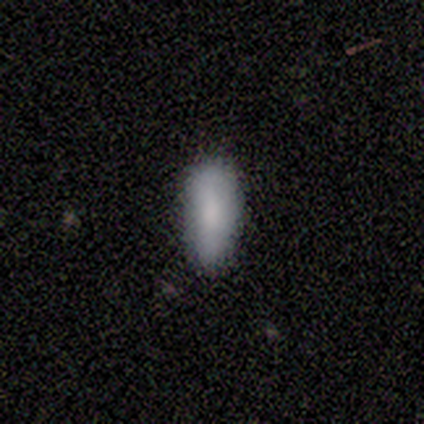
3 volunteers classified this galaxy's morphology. Smooth or featured?
  - smooth: 67% *
  - star or artifact: 33%
  - featured or disk: 0%
How rounded?
  - in between: 50% * (tied)
  - cigar-shaped: 50% * (tied)
  - round: 0%
Merging?
  - none: 50% * (tied)
  - minor disturbance: 50% * (tied)
  - major disturbance: 0%
  - merger: 0%